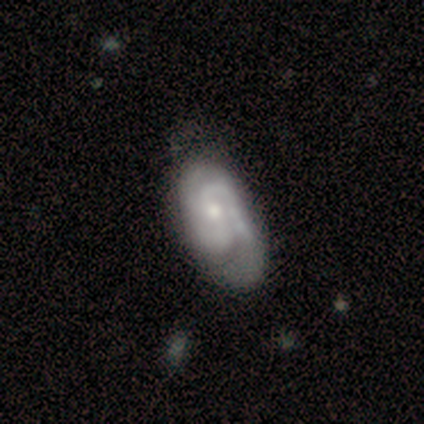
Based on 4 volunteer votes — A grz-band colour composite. It shows a featured or disk galaxy (100%) with a weak bar (50%), 2 (100%) medium (75%) spiral arms (100%) and a moderate central bulge (50%, tied with small). Merging: none (50%).